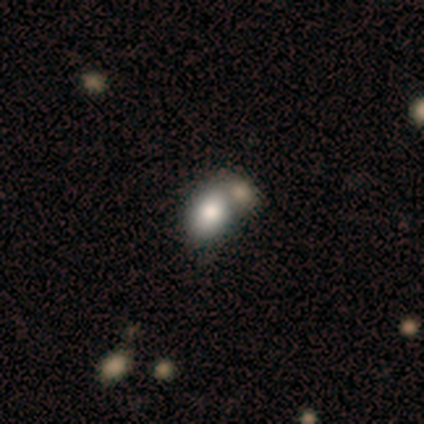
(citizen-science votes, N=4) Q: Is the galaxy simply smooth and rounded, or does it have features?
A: smooth — 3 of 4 (75%).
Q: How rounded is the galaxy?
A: in between — 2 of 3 (67%).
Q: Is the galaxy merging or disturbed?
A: merger — 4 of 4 (100%).